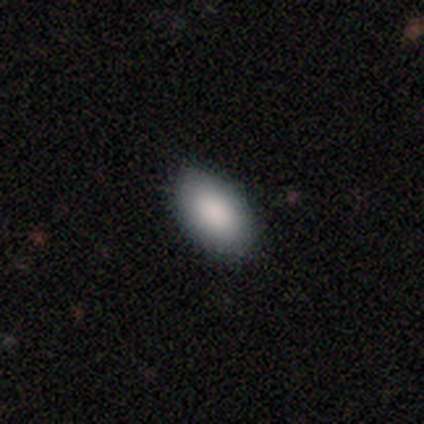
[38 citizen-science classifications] smooth_or_featured: smooth (p=0.82) [alt: star or artifact p=0.13]
how_rounded: in between (p=0.97) [alt: cigar-shaped p=0.03]
merging: none (p=0.85) [alt: minor disturbance p=0.15]